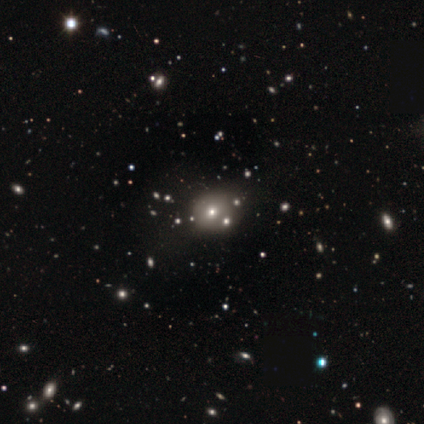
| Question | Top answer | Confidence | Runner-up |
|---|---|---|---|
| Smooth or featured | smooth | 76% | featured or disk (12%) |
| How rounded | round | 69% | in between (31%) |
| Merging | none | 33% | minor disturbance (7%) |